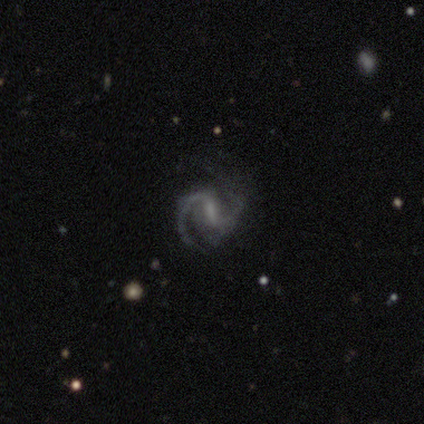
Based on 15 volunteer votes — Overall: featured or disk (93%). Edge-on disk: no (100%). Bar: weak (50%; strong 29%). Spiral arms: yes (100%). Spiral arm count: 2 (100%). Spiral winding: medium (50%; tight 29%). Bulge size: small (43%; none 36%). Merging: none (71%).